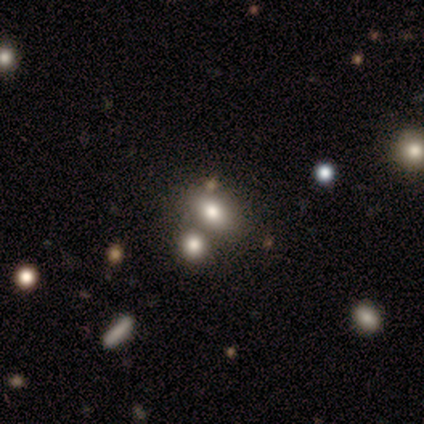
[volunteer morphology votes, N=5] A smooth galaxy with no disk features (80%) that is in between round and cigar-shaped (75%).

Vote fractions:
- Smooth or featured? smooth: 80% / star or artifact: 20% / featured or disk: 0%
- How rounded? in between: 75% / round: 25% / cigar-shaped: 0%
- Merging? none: 75% / merger: 25% / minor disturbance: 0% / major disturbance: 0%